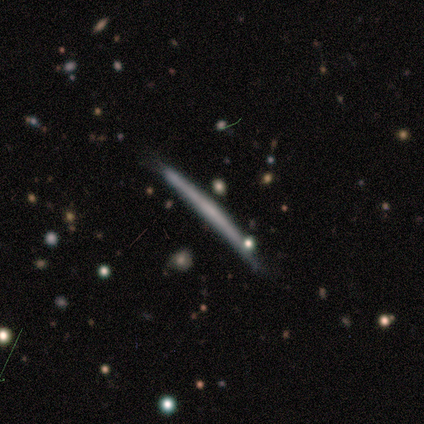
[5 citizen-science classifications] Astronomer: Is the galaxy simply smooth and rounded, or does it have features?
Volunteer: featured or disk — 80%.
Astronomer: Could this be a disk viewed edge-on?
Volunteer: yes — 100%.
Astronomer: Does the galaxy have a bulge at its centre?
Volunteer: none — 100%.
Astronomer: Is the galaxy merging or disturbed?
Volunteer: none — 40%, tied with minor disturbance at 40%.